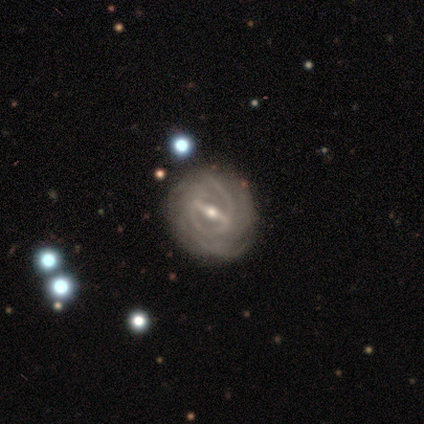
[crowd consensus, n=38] A featured or disk galaxy (87%) with a strong bar (62%), tight (65%) spiral arms (97%) and a small central bulge (59%).

Vote fractions:
- Smooth or featured? featured or disk: 87% / smooth: 8% / star or artifact: 5%
- Edge-on disk? no: 97% / yes: 3%
- Bar? strong: 62% / weak: 28% / no: 9%
- Spiral arms? yes: 97% / no: 3%
- Spiral winding? tight: 65% / medium: 23% / loose: 13%
- Spiral arm count? can't tell: 32% / 2: 29% / 3: 26% / 4: 6% / 1: 3% / more than 4: 3%
- Bulge size? small: 59% / moderate: 31% / large: 9% / dominant: 0% / none: 0%
- Merging? none: 94% / minor disturbance: 3% / merger: 3% / major disturbance: 0%